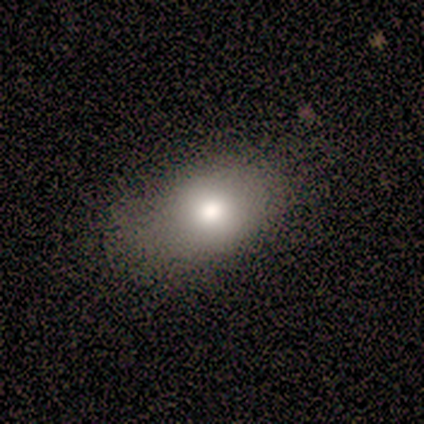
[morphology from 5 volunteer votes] Smooth or featured: smooth — 100%
How rounded: in between — 100%
Merging: minor disturbance — 60% (none — 40%)